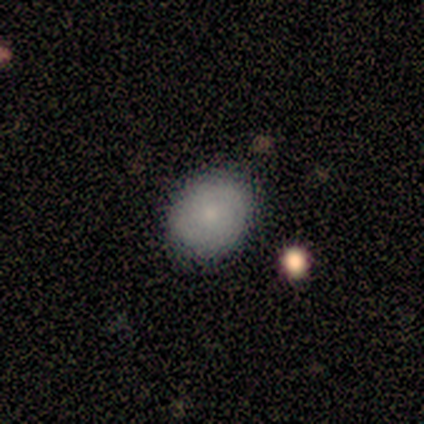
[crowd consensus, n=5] Smooth or featured: smooth — 80% (featured or disk — 20%)
How rounded: round — 50% (tied with in between — 50%)
Merging: none — 80% (minor disturbance — 20%)